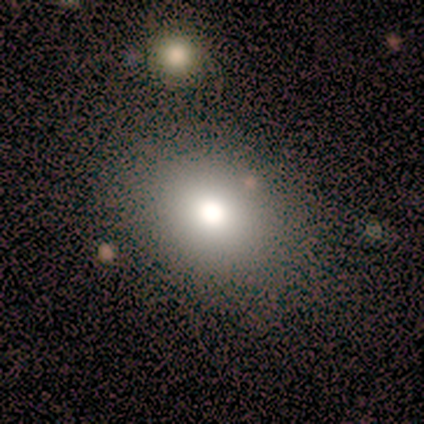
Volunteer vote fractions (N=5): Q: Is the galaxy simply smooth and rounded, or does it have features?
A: smooth — 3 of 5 (60%).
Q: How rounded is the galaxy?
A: round — 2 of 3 (67%).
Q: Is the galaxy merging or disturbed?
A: none — 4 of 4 (100%).